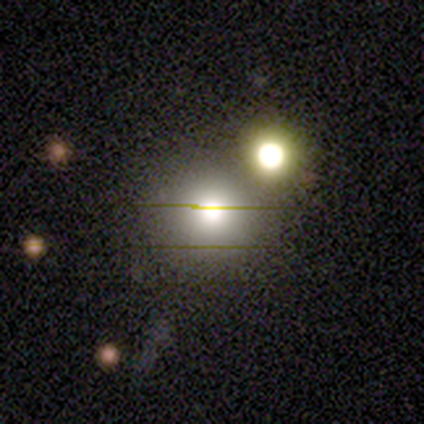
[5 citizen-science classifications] smooth 60%, star or artifact 40%, featured or disk 0%. Down the decision tree: how rounded — round (100%); merging — none (100%).